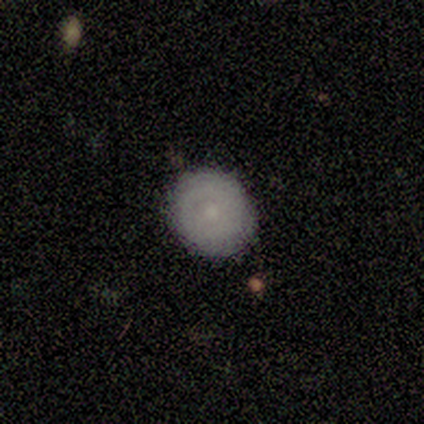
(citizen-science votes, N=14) Volunteers were most divided on "smooth or featured": smooth: 79%, featured or disk: 14%, star or artifact: 7%. More confident: merging — none (100%); how rounded — round (91%).